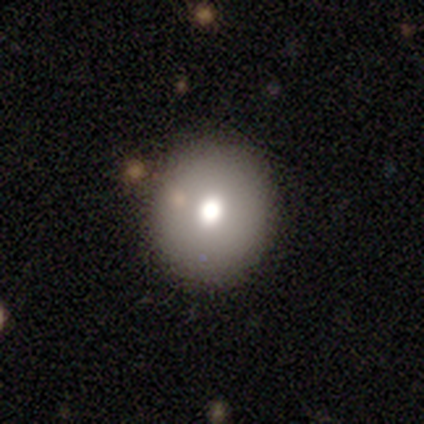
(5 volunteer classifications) smooth-or-featured: star or artifact: 80% | smooth: 20% | featured or disk: 0%